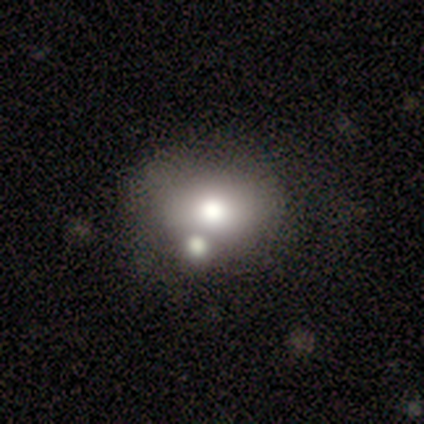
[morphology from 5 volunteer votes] Overall: smooth (60%; featured or disk 40%). How rounded: in between (67%; round 33%). Merging: none (60%; merger 40%).